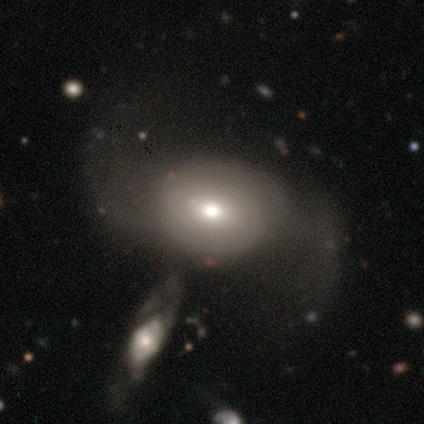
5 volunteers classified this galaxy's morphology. Q: Smooth or featured?
A: featured or disk (60%); runner-up: smooth (40%)
Q: Edge-on disk?
A: no (67%); runner-up: yes (33%)
Q: Bar?
A: weak (50%); tied with: no (50%)
Q: Spiral arms?
A: yes (100%)
Q: Spiral winding?
A: loose (100%)
Q: Spiral arm count?
A: 2 (100%)
Q: Bulge size?
A: moderate (50%); tied with: small (50%)
Q: Merging?
A: major disturbance (60%); runner-up: merger (40%)